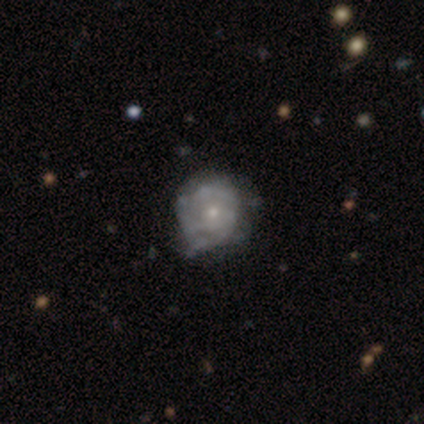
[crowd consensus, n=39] Smooth or featured? featured or disk (64%)
Edge-on disk? no (100%)
Bar? no (96%)
Spiral arms? no (52%)
Bulge size? small (80%)
Merging? none (53%)